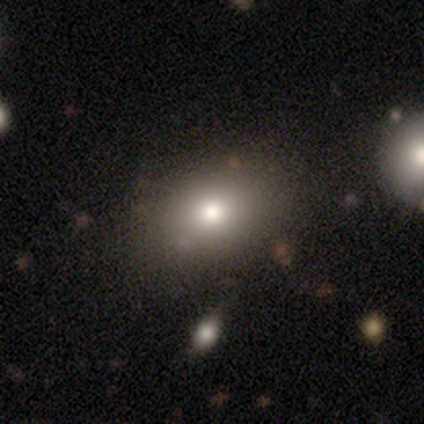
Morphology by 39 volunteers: Smooth or featured? smooth (82%)
How rounded? in between (81%)
Merging? none (91%)